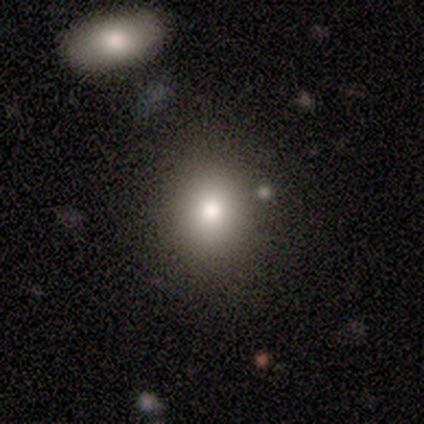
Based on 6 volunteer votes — Morphology: type=smooth (83%); roundness=round (60%); merging=none (83%).